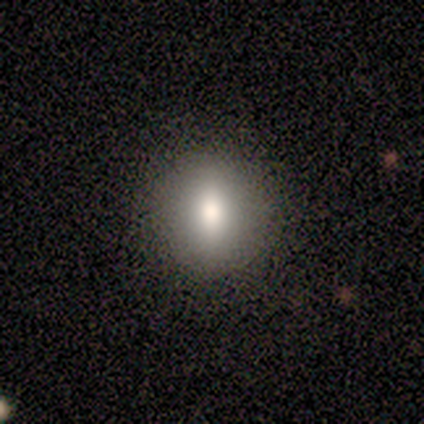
A smooth galaxy with no disk features (100%) that is round (50%, tied with in between). Merging: none (100%).